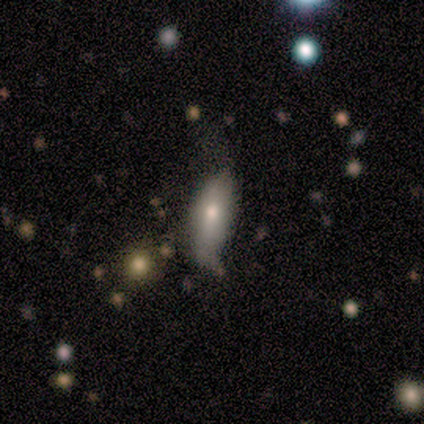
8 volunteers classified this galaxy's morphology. type=smooth (75%); roundness=in between (67%); merging=minor disturbance (57%).